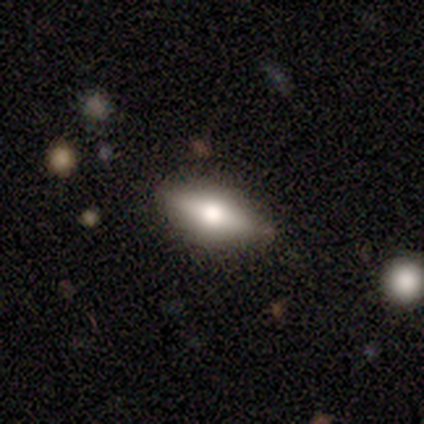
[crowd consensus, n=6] smooth 83%, star or artifact 17%, featured or disk 0%. Down the decision tree: how rounded — in between (60%); merging — none (60%).